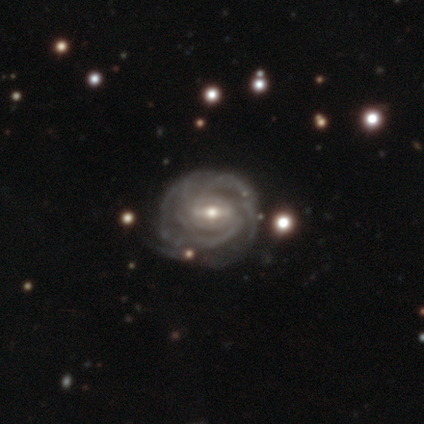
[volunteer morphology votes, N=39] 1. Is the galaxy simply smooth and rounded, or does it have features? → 90% featured or disk, 5% smooth, 5% star or artifact.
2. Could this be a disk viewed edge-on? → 100% no, 0% yes.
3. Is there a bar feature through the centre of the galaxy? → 60% weak, 31% strong, 9% no.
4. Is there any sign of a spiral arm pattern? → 100% yes, 0% no.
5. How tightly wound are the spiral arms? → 77% tight, 23% medium, 0% loose.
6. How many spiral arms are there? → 29% can't tell, 23% 3, 20% 4, 17% 2, 11% more than 4, 0% 1.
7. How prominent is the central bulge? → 54% moderate, 43% small, 3% dominant, 0% large, 0% none.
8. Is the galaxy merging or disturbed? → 70% none, 24% minor disturbance, 5% major disturbance, 0% merger.